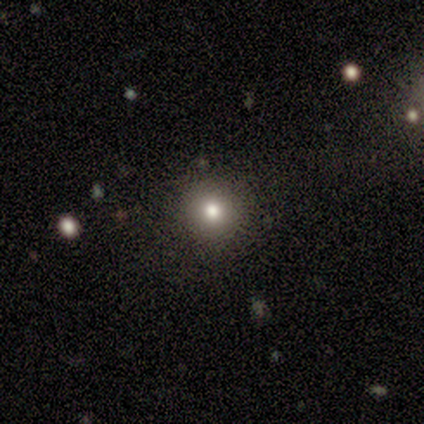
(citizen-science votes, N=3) smooth_or_featured: smooth (p=0.67) [alt: featured or disk p=0.33]
how_rounded: round (p=1.00)
merging: none (p=1.00)